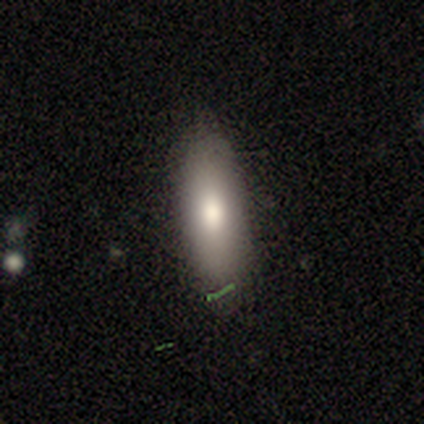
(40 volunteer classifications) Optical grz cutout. It shows a smooth galaxy with no disk features (85%) that is in between round and cigar-shaped (65%). Merging: none (89%).